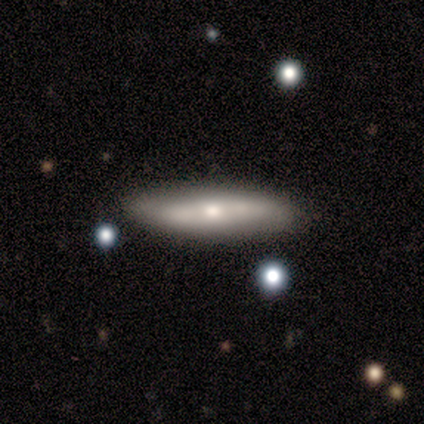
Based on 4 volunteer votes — Smooth or featured? smooth (50%, tied with featured or disk)
How rounded? cigar-shaped (100%)
Merging? none (75%)